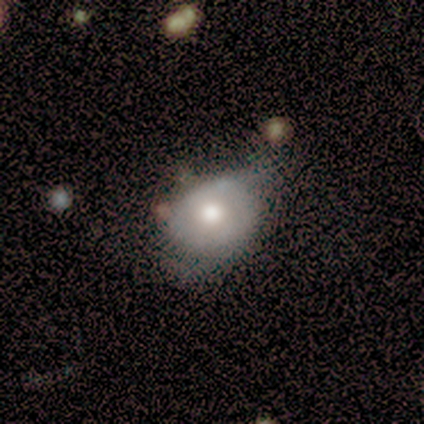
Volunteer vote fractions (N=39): Smooth or featured?
  - smooth: 51% *
  - featured or disk: 46%
  - star or artifact: 3%
How rounded?
  - in between: 55% *
  - round: 40%
  - cigar-shaped: 5%
Merging?
  - minor disturbance: 47% *
  - major disturbance: 16%
  - none: 13%
  - merger: 5%